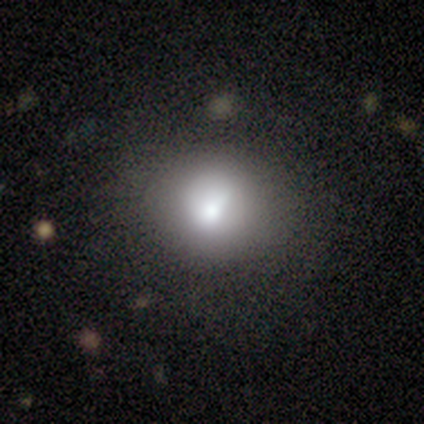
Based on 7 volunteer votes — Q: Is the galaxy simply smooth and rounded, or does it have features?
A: smooth — 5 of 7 (71%).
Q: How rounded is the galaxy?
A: round — 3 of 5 (60%).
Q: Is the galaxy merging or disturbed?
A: none — 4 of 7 (57%).